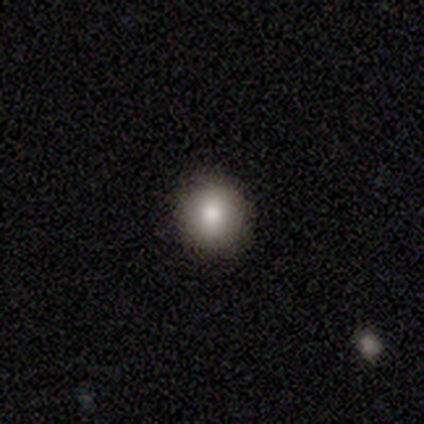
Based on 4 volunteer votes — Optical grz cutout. It shows a smooth galaxy with no disk features (50%) that is round (100%). Merging: none (100%).